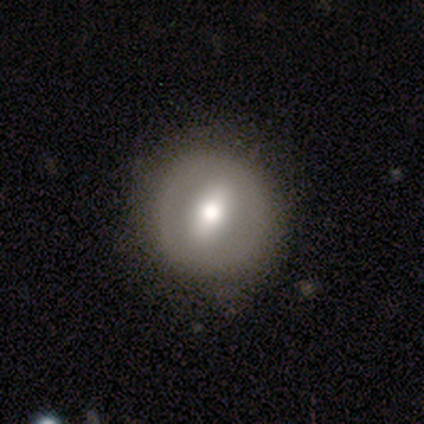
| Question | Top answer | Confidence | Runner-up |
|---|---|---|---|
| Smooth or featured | smooth | 52% | featured or disk (40%) |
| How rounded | round | 95% | in between (5%) |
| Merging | none | 78% | minor disturbance (22%) |